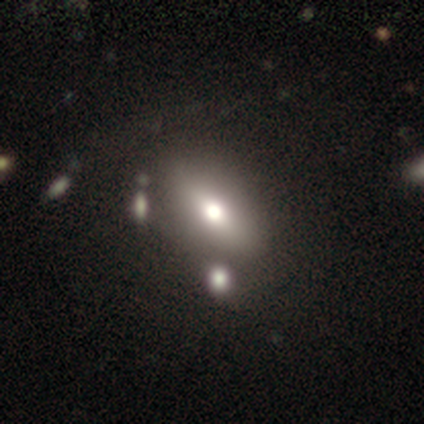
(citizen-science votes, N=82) Volunteers were most divided on "how rounded": in between: 64%, cigar-shaped: 25%, round: 11%. More confident: smooth or featured — smooth (67%); merging — none (66%).